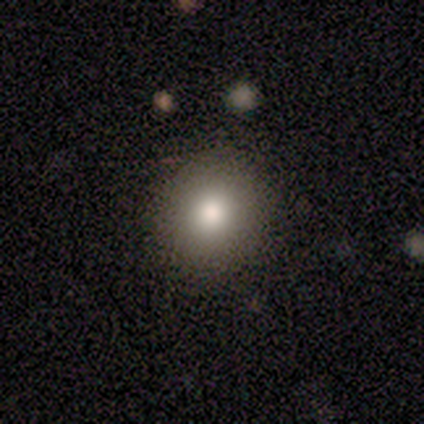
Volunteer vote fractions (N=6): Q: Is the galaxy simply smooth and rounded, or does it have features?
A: smooth — 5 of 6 (83%).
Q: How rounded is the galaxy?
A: round — 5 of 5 (100%).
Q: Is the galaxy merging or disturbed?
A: none — 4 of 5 (80%).